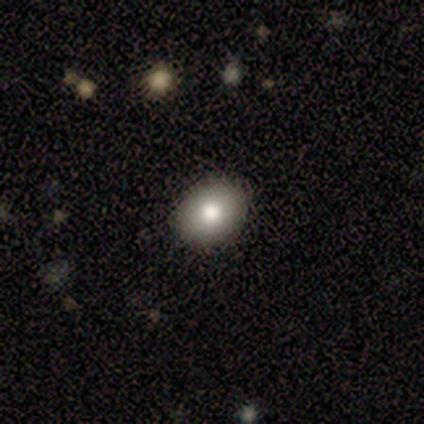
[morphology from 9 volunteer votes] smooth_or_featured: smooth (p=0.67) [alt: featured or disk p=0.33]
how_rounded: round (p=0.67) [alt: in between p=0.33]
merging: none (p=1.00)